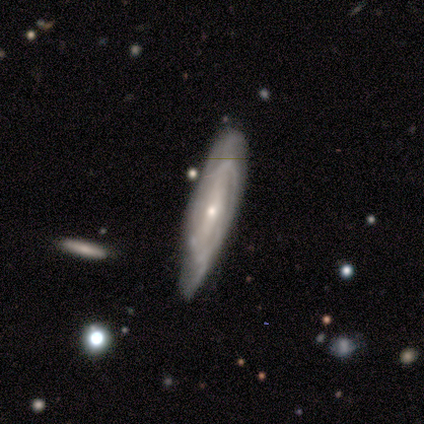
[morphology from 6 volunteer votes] A featured or disk galaxy (50%) with a strong bar (67%), 2 (67%) medium (100%) spiral arms (100%) and a small central bulge (100%).

Vote fractions:
- Smooth or featured? featured or disk: 50% / smooth: 33% / star or artifact: 17%
- Edge-on disk? no: 100% / yes: 0%
- Bar? strong: 67% / no: 33% / weak: 0%
- Spiral arms? yes: 100% / no: 0%
- Spiral winding? medium: 100% / tight: 0% / loose: 0%
- Spiral arm count? 2: 67% / 3: 33% / 1: 0% / 4: 0% / more than 4: 0% / can't tell: 0%
- Bulge size? small: 100% / dominant: 0% / large: 0% / moderate: 0% / none: 0%
- Merging? none: 60% / minor disturbance: 40% / major disturbance: 0% / merger: 0%